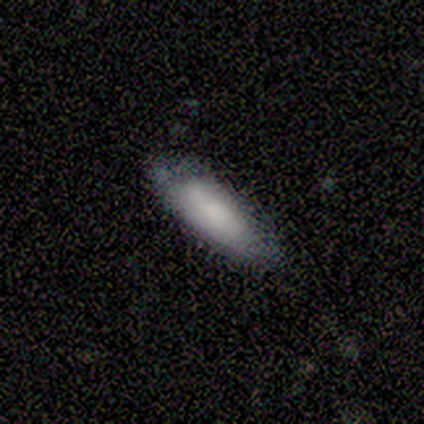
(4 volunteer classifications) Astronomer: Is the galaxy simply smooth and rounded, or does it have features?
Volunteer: smooth — 75%.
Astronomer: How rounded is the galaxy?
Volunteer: in between — 100%.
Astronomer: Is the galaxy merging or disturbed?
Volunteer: none — 75%.